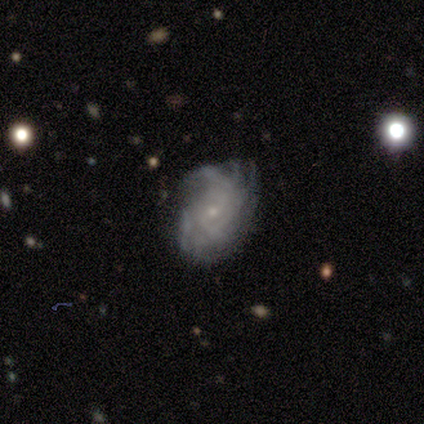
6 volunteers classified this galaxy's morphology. This is clearly a featured or disk galaxy (100%). It is clearly not viewed edge-on (100%). Bar: likely no (67%). Spiral arm pattern: clearly yes (100%). Spiral arm count: possibly can't tell (50%). Spiral winding: possibly tight (50%, tied with medium). Central bulge: clearly small (83%). Merging: clearly none (83%).